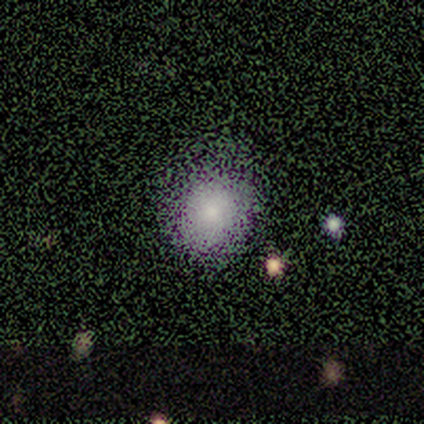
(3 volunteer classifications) Smooth or featured? smooth (67%)
How rounded? round (50%, tied with in between)
Merging? none (50%, tied with minor disturbance)